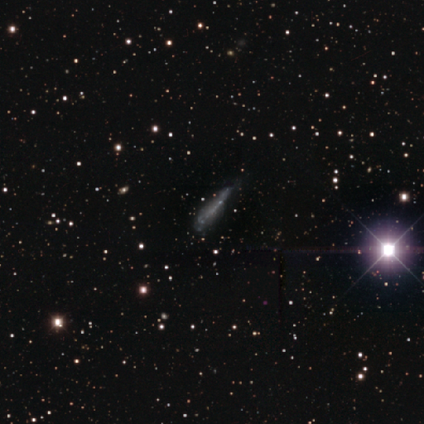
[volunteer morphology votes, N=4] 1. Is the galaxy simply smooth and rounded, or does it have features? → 50% smooth (tied), 50% star or artifact (tied), 0% featured or disk.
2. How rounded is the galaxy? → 100% cigar-shaped, 0% round, 0% in between.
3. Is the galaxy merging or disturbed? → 50% none (tied), 50% minor disturbance (tied), 0% major disturbance, 0% merger.